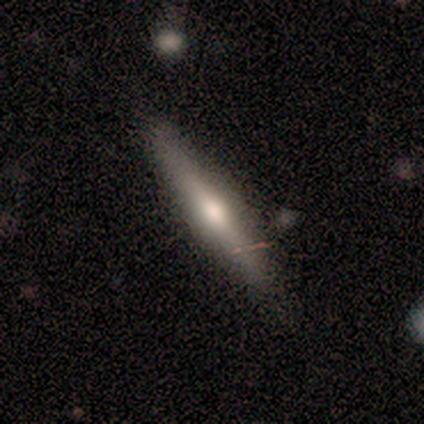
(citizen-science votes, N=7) This is possibly a featured or disk galaxy (57%). It is clearly viewed edge-on (100%). Edge-on bulge: likely rounded (75%). Merging: clearly none (86%).